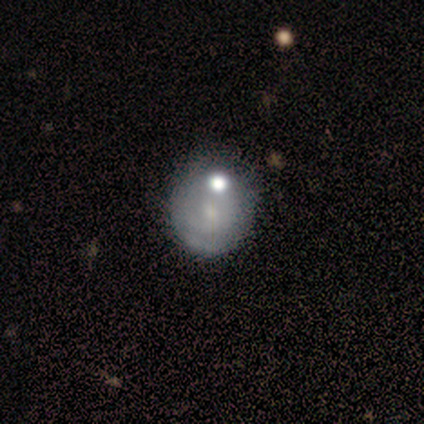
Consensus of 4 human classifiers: featured or disk 50%, smooth 25%, star or artifact 25%. Down the decision tree: edge-on disk — no (100%); bar — weak (50%, tied with no); spiral arms — yes (100%); spiral arm count — 2 (50%, tied with can't tell); spiral winding — tight (100%); bulge size — moderate (50%, tied with small); merging — none (67%).